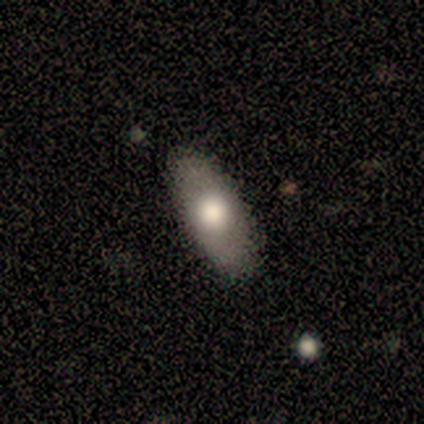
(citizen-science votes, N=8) Volunteers were most divided on "smooth or featured": smooth: 75%, featured or disk: 25%, star or artifact: 0%. More confident: how rounded — in between (83%); merging — none (75%).